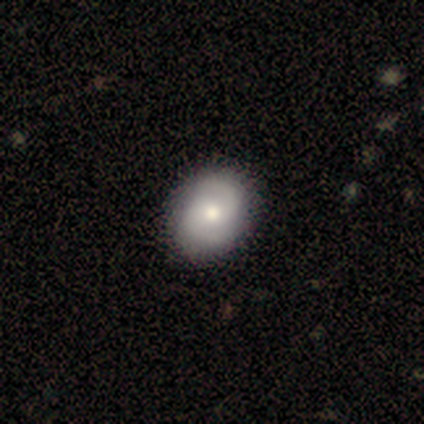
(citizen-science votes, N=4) Smooth or featured? 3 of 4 (75%) said smooth. How rounded? 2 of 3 (67%) said round. Merging? 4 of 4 (100%) said none.